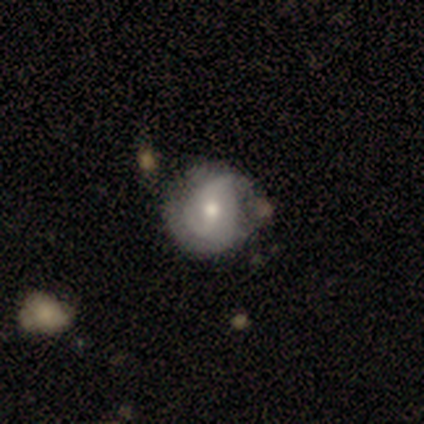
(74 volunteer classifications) Morphology: type=featured or disk (61%); edge-on=no (100%); bar=no (58%); spiral arms=yes (73%); winding=tight (58%); arm count=2 (61%); bulge=moderate (78%); merging=none (41%).